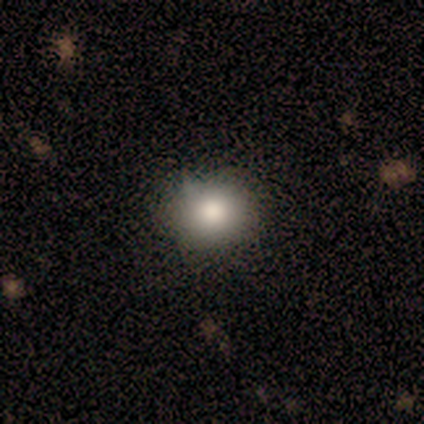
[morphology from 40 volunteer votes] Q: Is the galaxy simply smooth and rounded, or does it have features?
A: smooth — 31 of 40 (78%).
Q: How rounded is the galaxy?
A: round — 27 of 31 (87%).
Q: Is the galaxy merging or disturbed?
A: none — 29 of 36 (81%).